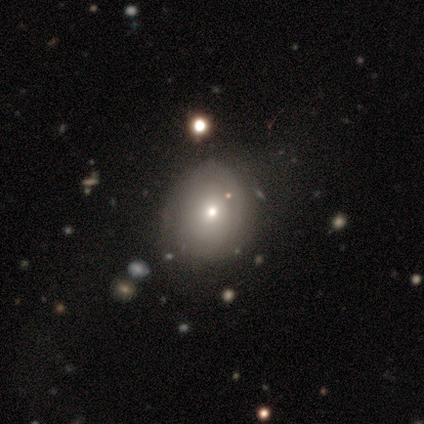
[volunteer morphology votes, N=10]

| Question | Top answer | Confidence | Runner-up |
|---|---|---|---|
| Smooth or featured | smooth | 40% | tied: featured or disk (40%) |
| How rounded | round | 75% | in between (25%) |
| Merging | none | 75% | minor disturbance (25%) |